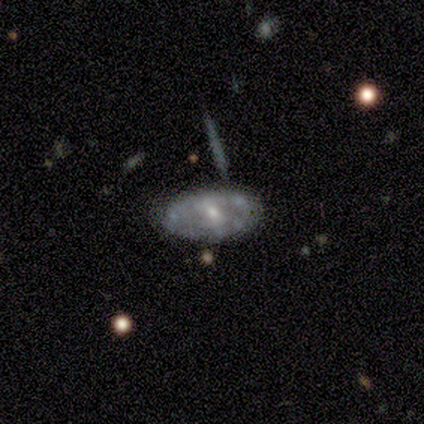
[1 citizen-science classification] Morphology: type=featured or disk (100%); edge-on=no (100%); bar=no (100%); spiral arms=yes (100%); winding=tight (100%); arm count=can't tell (100%); bulge=small (100%); merging=major disturbance (100%).